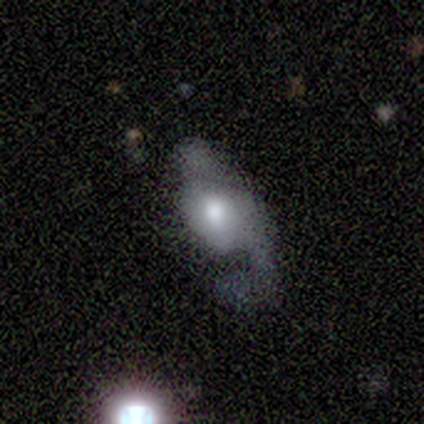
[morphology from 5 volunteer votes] type=featured or disk (80%); edge-on=no (100%); bar=no (75%); spiral arms=yes (75%); winding=loose (67%); arm count=2 (67%); bulge=moderate (75%); merging=major disturbance (100%).